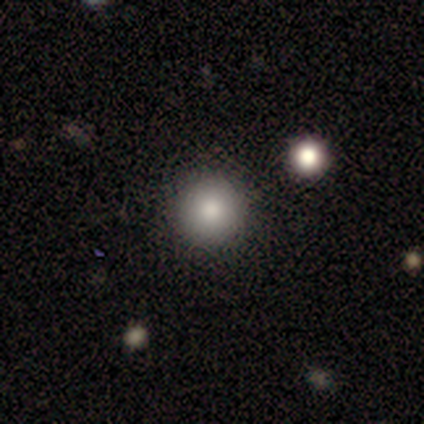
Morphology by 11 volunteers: Overall: smooth (100%). How rounded: round (91%). Merging: none (82%).